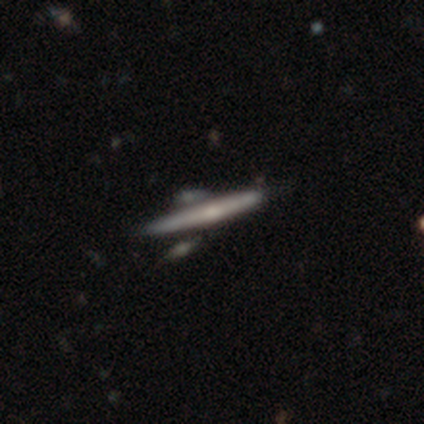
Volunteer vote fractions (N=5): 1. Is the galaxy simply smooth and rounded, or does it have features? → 60% featured or disk, 40% smooth, 0% star or artifact.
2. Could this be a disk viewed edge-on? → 100% yes, 0% no.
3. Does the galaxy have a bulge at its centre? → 67% none, 33% rounded, 0% boxy.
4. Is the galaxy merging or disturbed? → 80% none, 20% merger, 0% minor disturbance, 0% major disturbance.